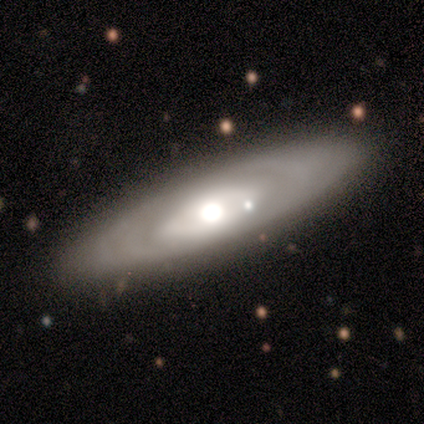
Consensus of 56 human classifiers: Smooth or featured? 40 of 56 (71%) said featured or disk. Edge-on disk? 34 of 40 (85%) said no. Bar? 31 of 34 (91%) said no. Spiral arms? 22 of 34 (65%) said no. Bulge size? 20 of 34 (59%) said moderate. Merging? 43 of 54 (80%) said none.